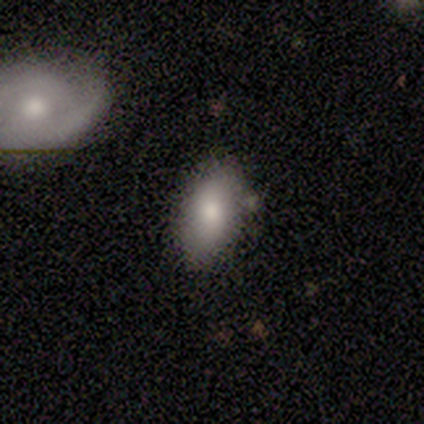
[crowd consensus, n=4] Smooth or featured? 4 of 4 (100%) said smooth. How rounded? 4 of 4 (100%) said in between. Merging? 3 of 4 (75%) said none.